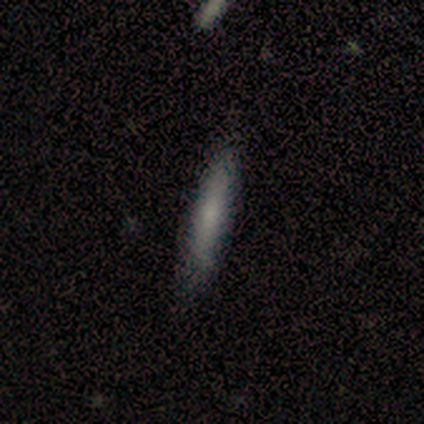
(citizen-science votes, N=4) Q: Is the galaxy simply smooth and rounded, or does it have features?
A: smooth — 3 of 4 (75%).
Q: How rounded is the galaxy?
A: cigar-shaped — 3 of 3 (100%).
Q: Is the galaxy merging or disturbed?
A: none — 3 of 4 (75%).